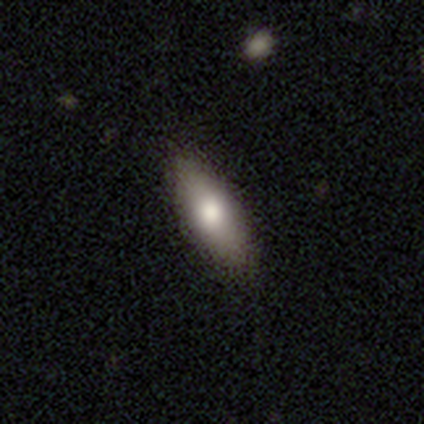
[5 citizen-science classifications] Volunteers were most divided on "smooth or featured": smooth: 60%, star or artifact: 40%, featured or disk: 0%. More confident: merging — none (100%); how rounded — in between (67%).